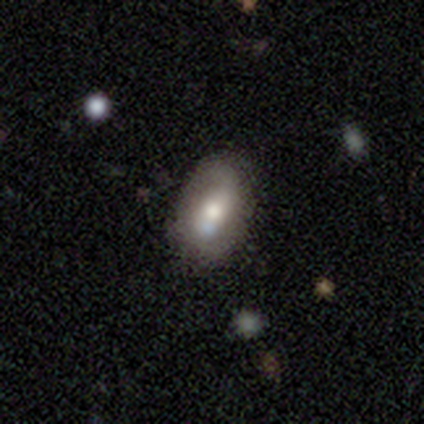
This is likely a featured or disk galaxy (60%). It is clearly not viewed edge-on (100%). Bar: likely no (67%). Spiral arm pattern: likely yes (67%). Spiral arm count: possibly 2 (50%, tied with can't tell). Spiral winding: clearly medium (100%). Central bulge: likely moderate (67%). Merging: likely none (75%).